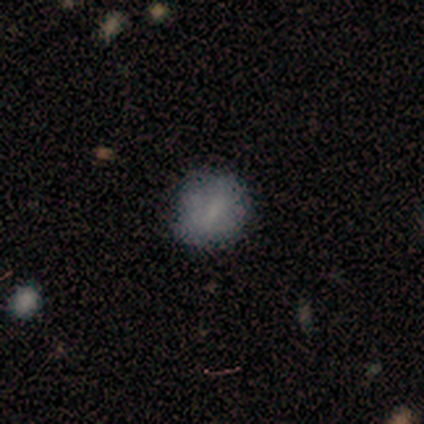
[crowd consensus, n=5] Smooth or featured? smooth (80%)
How rounded? round (50%, tied with in between)
Merging? minor disturbance (60%)